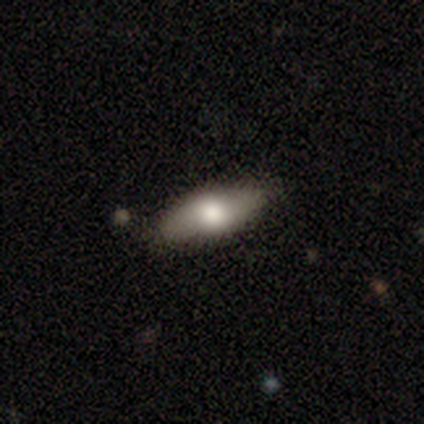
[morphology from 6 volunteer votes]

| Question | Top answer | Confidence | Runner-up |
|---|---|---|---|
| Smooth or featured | featured or disk | 67% | smooth (33%) |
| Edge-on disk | yes | 50% | tied: no (50%) |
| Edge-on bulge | rounded | 100% | — |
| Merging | none | 100% | — |